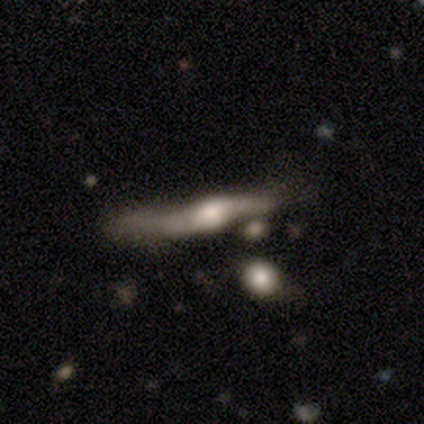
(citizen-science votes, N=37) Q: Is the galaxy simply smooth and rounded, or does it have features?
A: featured or disk — 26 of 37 (70%).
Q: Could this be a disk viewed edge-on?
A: yes — 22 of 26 (85%).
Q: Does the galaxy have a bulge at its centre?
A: rounded — 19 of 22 (86%).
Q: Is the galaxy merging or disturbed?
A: major disturbance — 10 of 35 (29%).